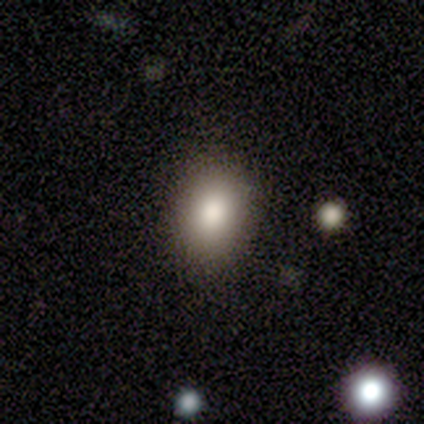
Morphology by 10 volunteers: smooth-or-featured: smooth: 70% | star or artifact: 20% | featured or disk: 10%
  how-rounded: round: 57% | in between: 43% | cigar-shaped: 0%
  merging: none: 62% | minor disturbance: 38% | major disturbance: 0% | merger: 0%